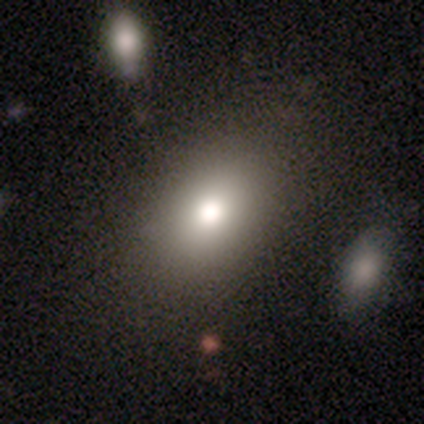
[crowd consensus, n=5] Smooth or featured? 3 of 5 (60%) said smooth. How rounded? 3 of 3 (100%) said in between. Merging? 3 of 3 (100%) said none.